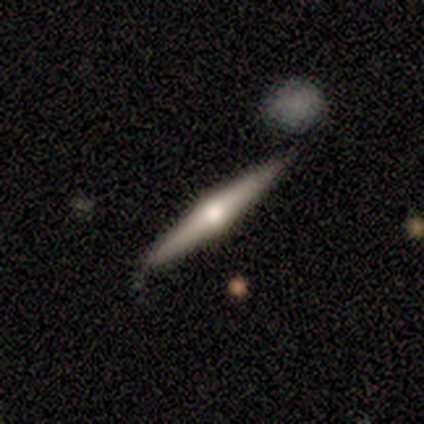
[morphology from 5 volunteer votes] Smooth or featured? 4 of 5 (80%) said featured or disk. Edge-on disk? 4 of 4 (100%) said yes. Edge-on bulge? 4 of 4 (100%) said rounded. Merging? 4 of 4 (100%) said none.